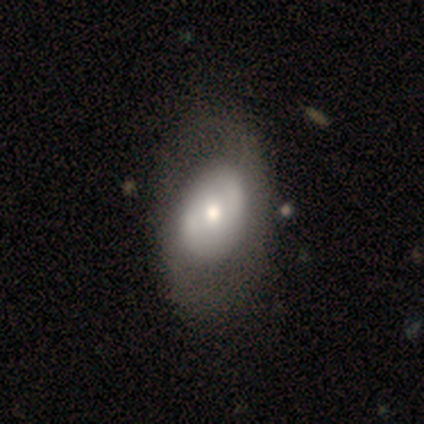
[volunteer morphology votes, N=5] This is likely a featured or disk galaxy (60%). It is clearly not viewed edge-on (100%). Bar: likely weak (67%). Spiral arm pattern: clearly no (100%). Central bulge: marginally dominant (33%, tied with large and moderate). Merging: clearly none (100%).